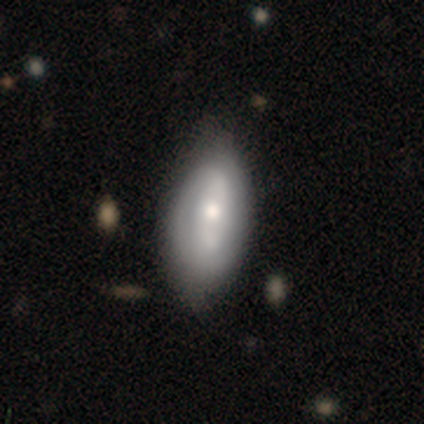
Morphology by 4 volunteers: A featured or disk galaxy (75%) with no bar (67%), no spiral arms (67%) and a moderate central bulge (67%).

Vote fractions:
- Smooth or featured? featured or disk: 75% / smooth: 25% / star or artifact: 0%
- Edge-on disk? no: 100% / yes: 0%
- Bar? no: 67% / weak: 33% / strong: 0%
- Spiral arms? no: 67% / yes: 33%
- Bulge size? moderate: 67% / small: 33% / dominant: 0% / large: 0% / none: 0%
- Merging? none: 50% (tied) / minor disturbance: 50% (tied) / major disturbance: 0% / merger: 0%